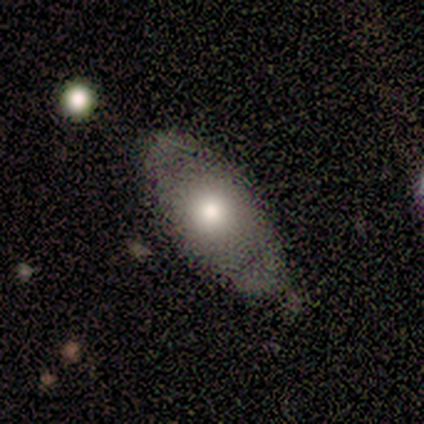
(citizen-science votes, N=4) featured or disk 75%, smooth 25%, star or artifact 0%. Down the decision tree: edge-on disk — no (100%); bar — no (100%); spiral arms — no (100%); bulge size — moderate (67%); merging — none (75%).